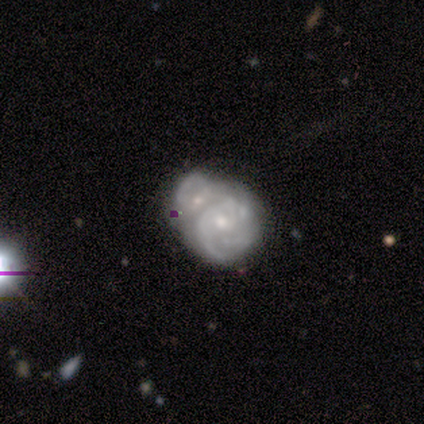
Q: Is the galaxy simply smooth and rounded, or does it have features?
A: featured or disk — 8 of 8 (100%).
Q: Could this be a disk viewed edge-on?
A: no — 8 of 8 (100%).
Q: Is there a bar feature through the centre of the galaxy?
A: no — 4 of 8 (50%).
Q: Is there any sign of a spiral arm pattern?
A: yes — 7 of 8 (88%).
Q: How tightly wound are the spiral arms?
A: medium — 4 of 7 (57%).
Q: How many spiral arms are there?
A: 3 — 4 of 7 (57%).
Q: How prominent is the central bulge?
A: moderate — 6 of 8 (75%).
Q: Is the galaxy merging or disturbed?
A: merger — 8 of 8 (100%).